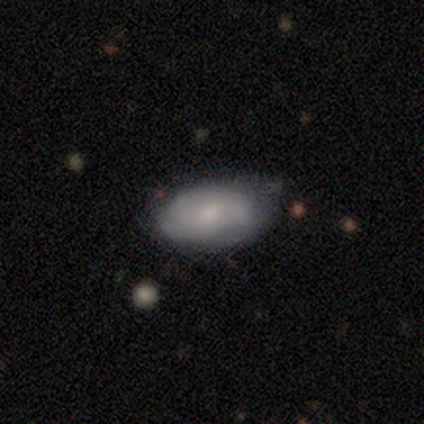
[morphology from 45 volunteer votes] smooth 69%, featured or disk 29%, star or artifact 2%. Down the decision tree: how rounded — in between (94%); merging — none (73%).